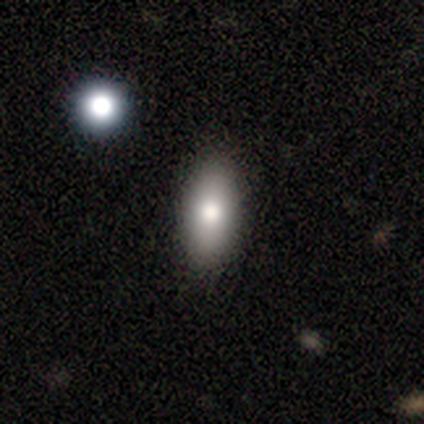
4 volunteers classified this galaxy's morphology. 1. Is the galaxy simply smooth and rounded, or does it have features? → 75% smooth, 25% featured or disk, 0% star or artifact.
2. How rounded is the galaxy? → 100% in between, 0% round, 0% cigar-shaped.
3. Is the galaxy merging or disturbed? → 100% none, 0% minor disturbance, 0% major disturbance, 0% merger.